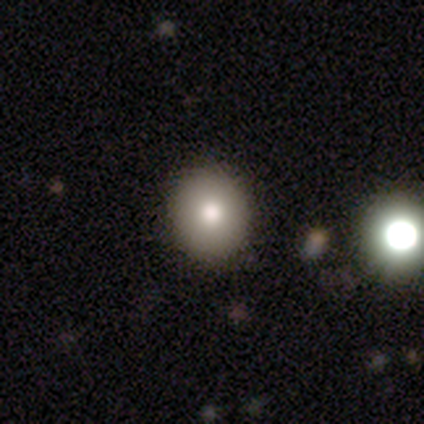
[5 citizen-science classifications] smooth_or_featured: smooth (p=0.60) [alt: featured or disk p=0.20]
how_rounded: round (p=1.00)
merging: none (p=1.00)